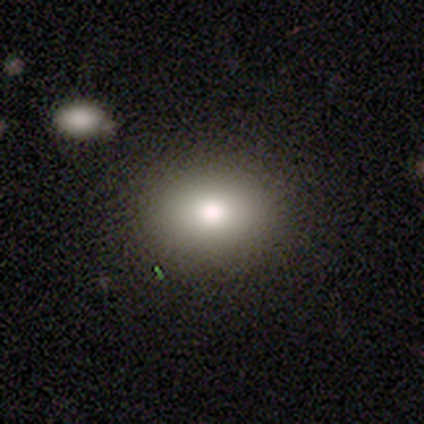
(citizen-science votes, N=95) smooth-or-featured: smooth: 80% | star or artifact: 11% | featured or disk: 9%
  how-rounded: in between: 61% | round: 39% | cigar-shaped: 0%
  merging: none: 87% | minor disturbance: 12% | merger: 1% | major disturbance: 0%